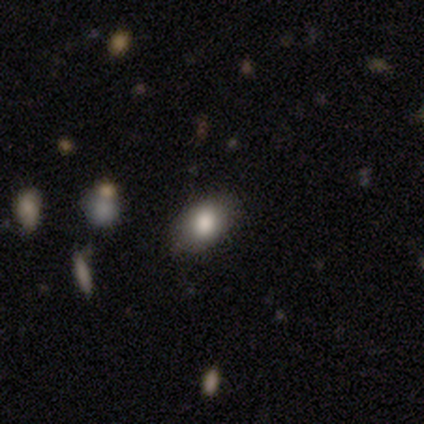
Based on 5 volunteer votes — Smooth or featured: smooth — 100%
How rounded: in between — 60% (round — 40%)
Merging: none — 100%